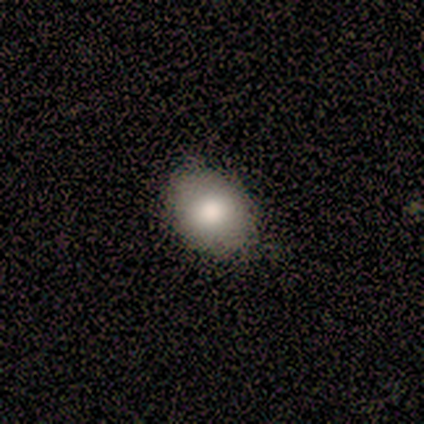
smooth_or_featured: smooth (p=1.00)
how_rounded: round (p=0.60) [alt: in between p=0.40]
merging: none (p=0.80) [alt: minor disturbance p=0.20]